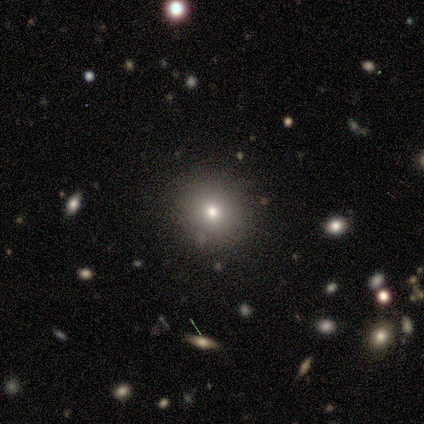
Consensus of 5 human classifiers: smooth-or-featured: smooth: 80% | featured or disk: 20% | star or artifact: 0%
  how-rounded: round: 100% | in between: 0% | cigar-shaped: 0%
  merging: none: 80% | minor disturbance: 20% | major disturbance: 0% | merger: 0%